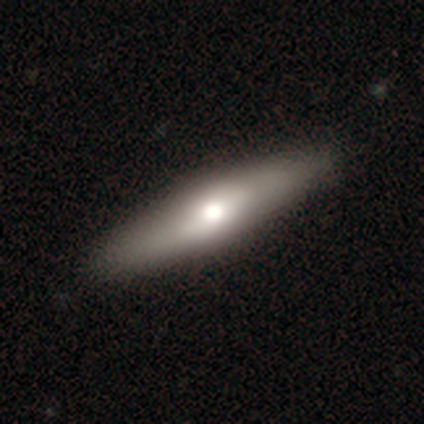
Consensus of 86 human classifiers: A smooth galaxy with no disk features (45%) that is cigar-shaped (77%).

Vote fractions:
- Smooth or featured? smooth: 45% / featured or disk: 42% / star or artifact: 13%
- How rounded? cigar-shaped: 77% / in between: 15% / round: 8%
- Merging? none: 87% / minor disturbance: 7% / major disturbance: 5% / merger: 1%